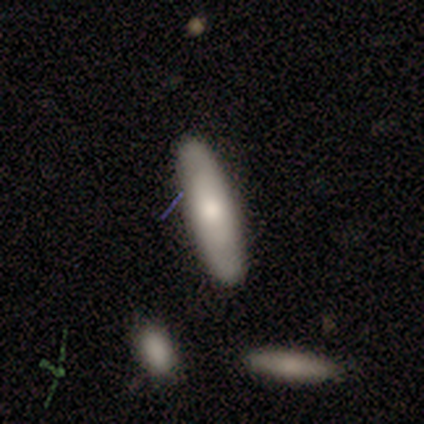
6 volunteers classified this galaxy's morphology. This is possibly a smooth galaxy (50%). How rounded: clearly cigar-shaped (100%). Merging: clearly none (80%).